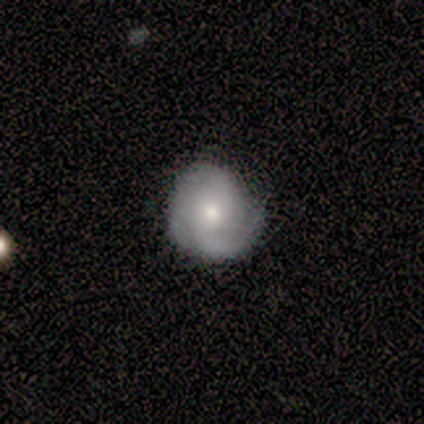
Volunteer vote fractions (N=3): This appears to be a smooth galaxy with no disk features (67%) that is round (50%, tied with in between). Merging: none (67%).